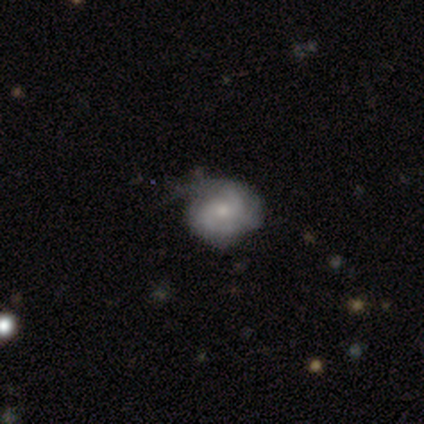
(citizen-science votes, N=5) This appears to be a featured or disk galaxy (60%) with no bar (100%), medium (67%) spiral arms (100%) and a moderate central bulge (67%). Merging: none (50%, tied with major disturbance).